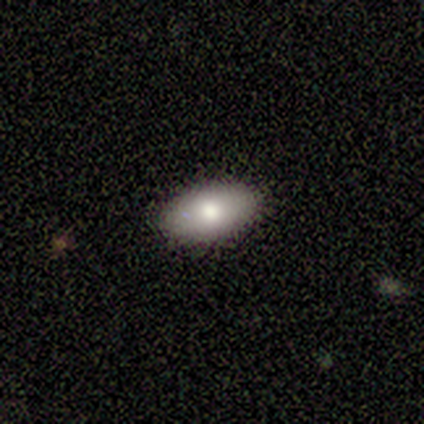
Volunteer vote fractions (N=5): Smooth or featured?
  - smooth: 100% *
  - featured or disk: 0%
  - star or artifact: 0%
How rounded?
  - in between: 100% *
  - round: 0%
  - cigar-shaped: 0%
Merging?
  - none: 80% *
  - minor disturbance: 20%
  - major disturbance: 0%
  - merger: 0%